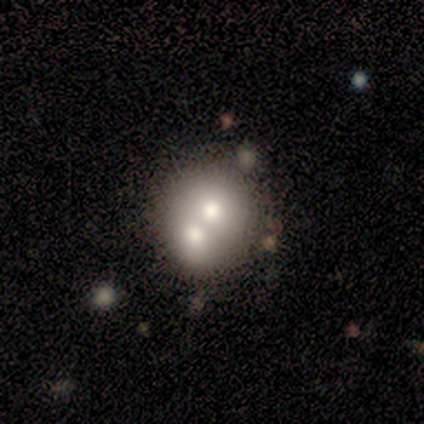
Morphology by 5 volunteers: Volunteers were most divided on "smooth or featured": smooth: 60%, featured or disk: 20%, star or artifact: 20%. More confident: how rounded — round (100%); merging — merger (75%).